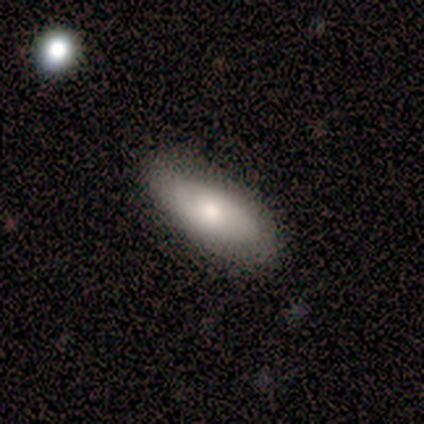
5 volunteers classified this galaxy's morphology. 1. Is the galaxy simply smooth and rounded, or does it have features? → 100% smooth, 0% featured or disk, 0% star or artifact.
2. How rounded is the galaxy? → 80% in between, 20% cigar-shaped, 0% round.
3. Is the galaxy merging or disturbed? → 60% none, 40% minor disturbance, 0% major disturbance, 0% merger.